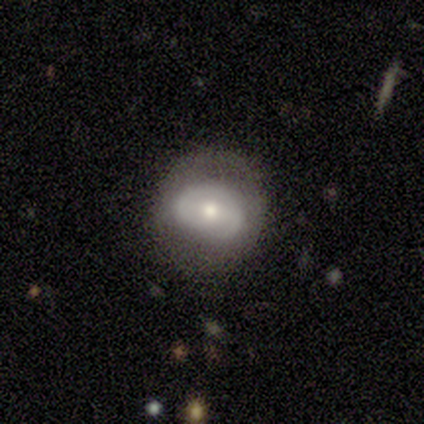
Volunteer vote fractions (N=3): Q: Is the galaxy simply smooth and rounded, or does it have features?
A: smooth — 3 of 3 (100%).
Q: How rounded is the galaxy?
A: in between — 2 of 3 (67%).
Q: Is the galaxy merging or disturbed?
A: none — 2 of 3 (67%).